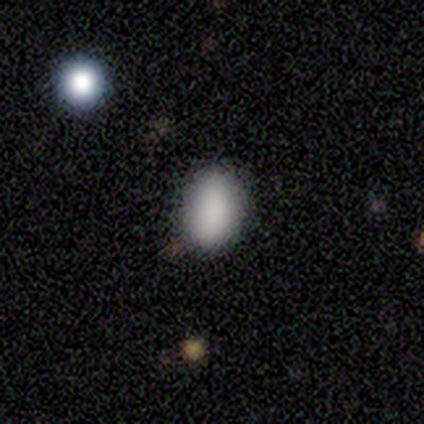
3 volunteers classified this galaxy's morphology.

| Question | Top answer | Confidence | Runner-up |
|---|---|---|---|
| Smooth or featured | smooth | 67% | star or artifact (33%) |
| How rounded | in between | 100% | — |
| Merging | none | 100% | — |